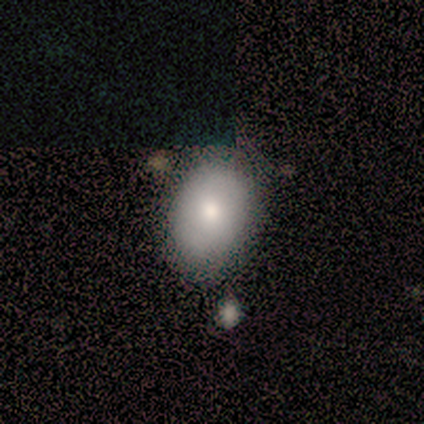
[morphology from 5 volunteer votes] Overall: smooth (60%; featured or disk 40%). How rounded: in between (100%). Merging: none (60%; minor disturbance 20%).